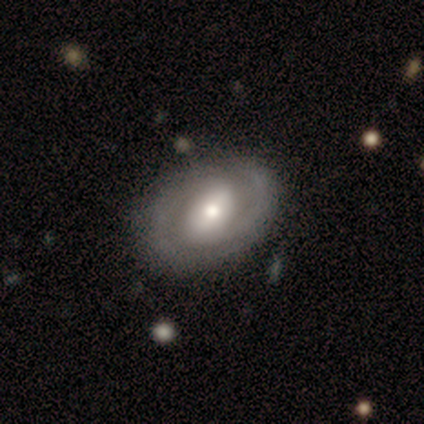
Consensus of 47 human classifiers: Smooth or featured: featured or disk — 72% (smooth — 17%)
Edge-on disk: no — 94% (yes — 6%)
Bar: no — 38% (strong — 31%)
Spiral arms: yes — 84% (no — 16%)
Spiral winding: tight — 48% (medium — 33%)
Spiral arm count: 2 — 89% (can't tell — 7%)
Bulge size: moderate — 53% (small — 31%)
Merging: none — 76% (minor disturbance — 14%)